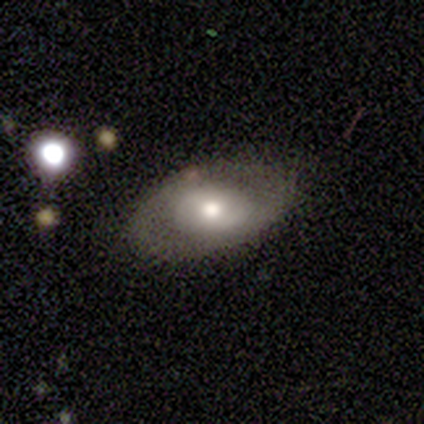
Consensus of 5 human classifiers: Overall: smooth (40%, tied with featured or disk). How rounded: in between (100%). Merging: none (75%).